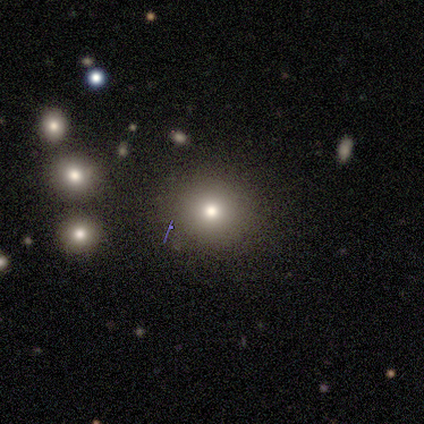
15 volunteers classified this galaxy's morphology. type=smooth (80%); roundness=round (92%); merging=none (92%).